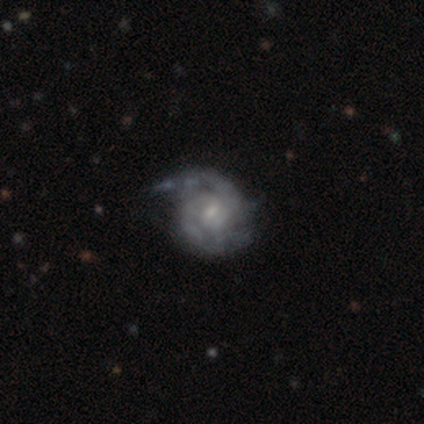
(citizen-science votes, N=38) A featured or disk galaxy (95%) with no bar (50%), 2 (60%) tight (54%) spiral arms (97%) and a small central bulge (67%). Merging: none (41%).